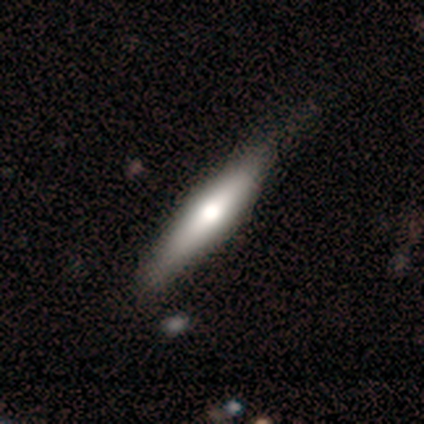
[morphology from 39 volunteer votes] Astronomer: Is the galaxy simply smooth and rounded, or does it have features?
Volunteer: featured or disk — 59% (runner-up: smooth, 41%).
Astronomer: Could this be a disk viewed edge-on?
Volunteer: yes — 96%.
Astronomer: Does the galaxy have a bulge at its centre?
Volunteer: rounded — 91%.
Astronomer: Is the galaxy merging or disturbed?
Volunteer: none — 56%.